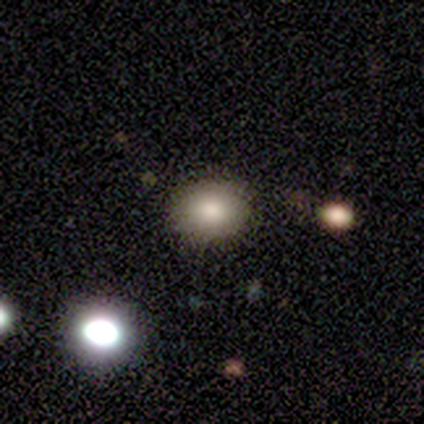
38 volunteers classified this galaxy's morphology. Smooth or featured: smooth — 82% (star or artifact — 16%)
How rounded: in between — 52% (round — 48%)
Merging: none — 81% (minor disturbance — 19%)